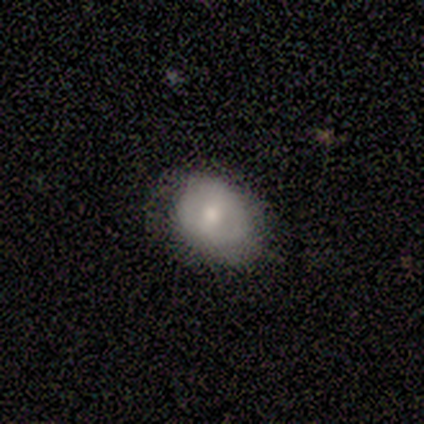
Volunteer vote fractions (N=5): Smooth or featured? 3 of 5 (60%) said featured or disk. Edge-on disk? 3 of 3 (100%) said no. Bar? 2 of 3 (67%) said strong. Spiral arms? 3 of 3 (100%) said no. Bulge size? 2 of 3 (67%) said moderate. Merging? 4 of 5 (80%) said none.